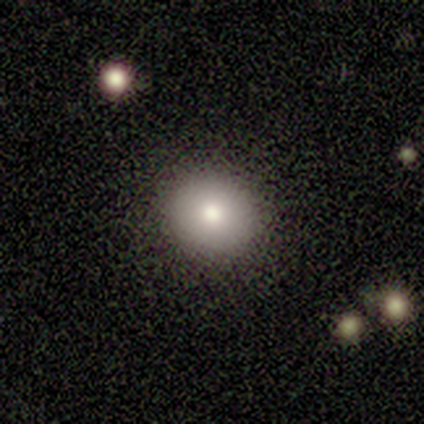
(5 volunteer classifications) Overall: smooth (100%). How rounded: round (100%). Merging: none (80%).